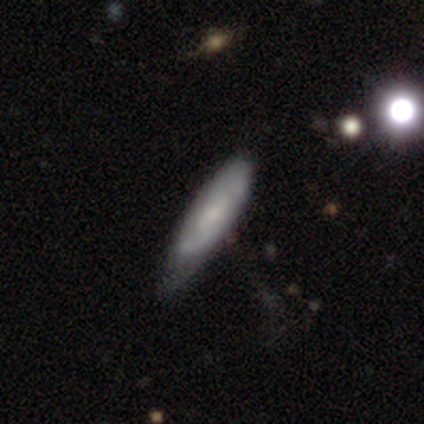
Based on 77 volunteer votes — Smooth or featured: smooth — 51% (featured or disk — 49%)
How rounded: cigar-shaped — 51% (in between — 49%)
Merging: minor disturbance — 32% (none — 22%)